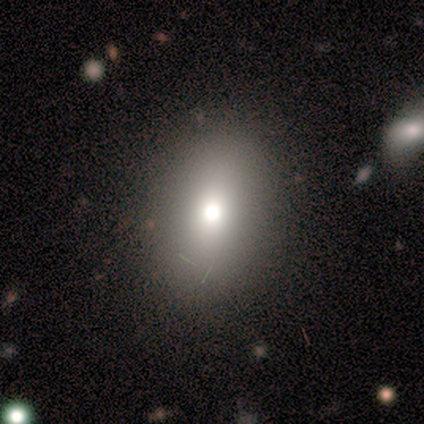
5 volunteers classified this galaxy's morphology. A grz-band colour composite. It shows a smooth galaxy with no disk features (80%) that is in between round and cigar-shaped (75%). Merging: none (100%).